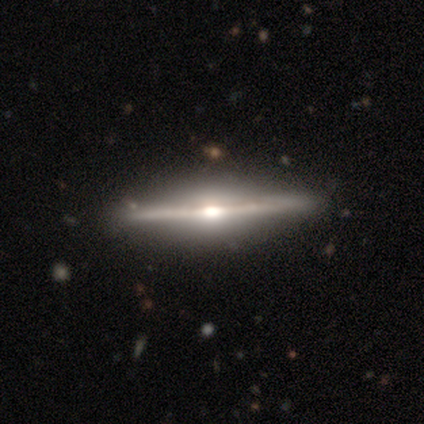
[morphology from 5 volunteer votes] Smooth or featured? featured or disk (100%)
Edge-on disk? yes (100%)
Edge-on bulge? rounded (80%)
Merging? none (100%)